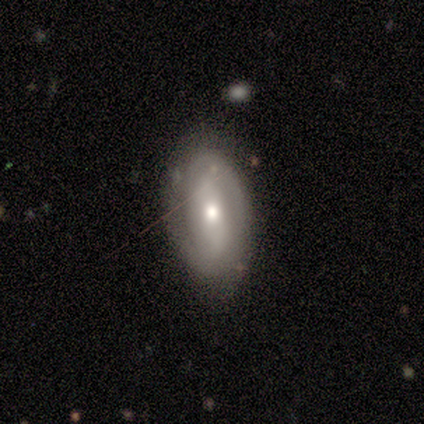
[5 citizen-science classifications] This is clearly a featured or disk galaxy (80%). It is clearly not viewed edge-on (100%). Bar: likely no (75%). Spiral arm pattern: clearly yes (100%). Spiral arm count: likely 2 (75%). Spiral winding: clearly medium (100%). Central bulge: clearly moderate (100%). Merging: likely none (75%).